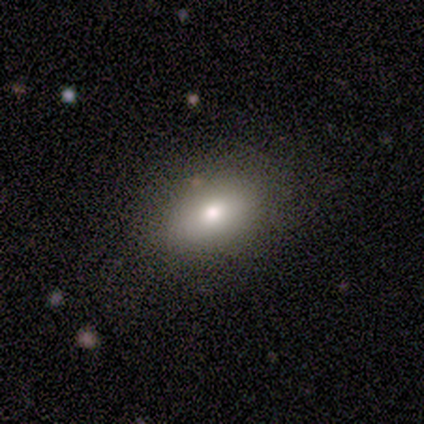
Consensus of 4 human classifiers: smooth-or-featured: smooth: 100% | featured or disk: 0% | star or artifact: 0%
  how-rounded: in between: 100% | round: 0% | cigar-shaped: 0%
  merging: none: 50% (tied) | minor disturbance: 50% (tied) | major disturbance: 0% | merger: 0%